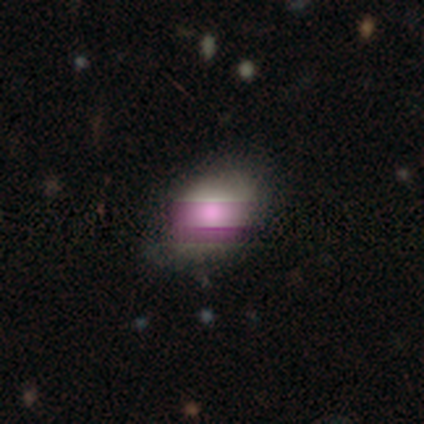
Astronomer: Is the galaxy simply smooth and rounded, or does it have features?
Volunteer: smooth — 80%.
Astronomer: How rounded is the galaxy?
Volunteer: in between — 75%.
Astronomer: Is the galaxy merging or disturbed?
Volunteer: none — 50%.